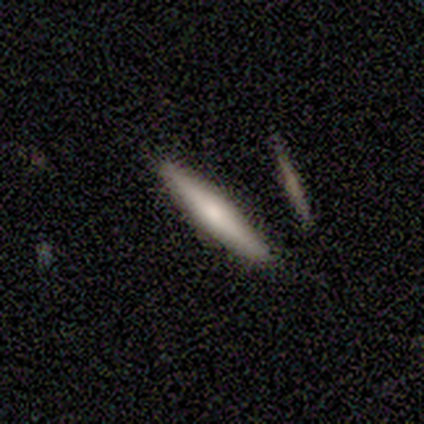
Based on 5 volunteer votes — smooth-or-featured: featured or disk: 60% | smooth: 40% | star or artifact: 0%
  disk-edge-on: yes: 100% | no: 0%
    edge-on-bulge: rounded: 100% | boxy: 0% | none: 0%
  merging: none: 100% | minor disturbance: 0% | major disturbance: 0% | merger: 0%